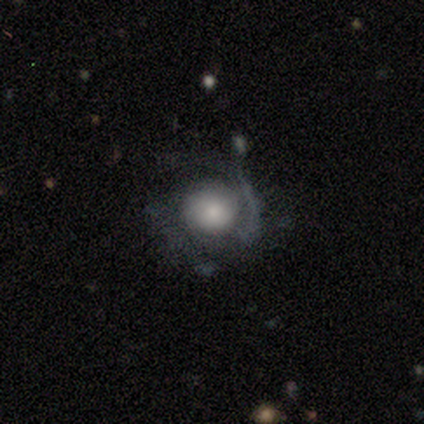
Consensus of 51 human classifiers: Smooth or featured: featured or disk — 61% (smooth — 31%)
Edge-on disk: no — 100%
Bar: no — 90% (weak — 6%)
Spiral arms: yes — 68% (no — 32%)
Spiral winding: medium — 38% (tied with loose — 38%)
Spiral arm count: 2 — 76% (1 — 14%)
Bulge size: large — 39% (small — 32%)
Merging: none — 55% (major disturbance — 30%)